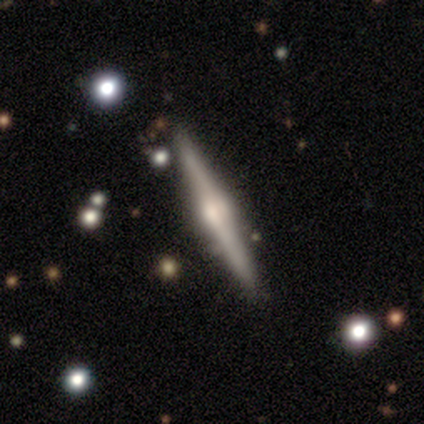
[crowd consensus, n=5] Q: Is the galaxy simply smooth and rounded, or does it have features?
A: featured or disk — 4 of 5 (80%).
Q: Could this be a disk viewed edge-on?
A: yes — 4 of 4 (100%).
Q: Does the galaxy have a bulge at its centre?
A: rounded — 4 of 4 (100%).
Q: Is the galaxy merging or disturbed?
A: none — 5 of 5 (100%).